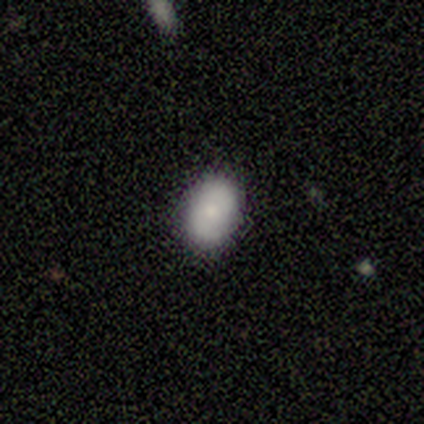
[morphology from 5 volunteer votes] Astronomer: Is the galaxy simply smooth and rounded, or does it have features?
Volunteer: featured or disk — 60% (runner-up: smooth, 40%).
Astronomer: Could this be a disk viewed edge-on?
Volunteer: no — 100%.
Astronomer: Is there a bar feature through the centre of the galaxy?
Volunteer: no — 100%.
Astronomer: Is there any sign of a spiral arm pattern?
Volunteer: yes — 100%.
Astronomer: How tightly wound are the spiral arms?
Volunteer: medium — 67%.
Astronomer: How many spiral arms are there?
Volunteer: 2 — 33%, tied with 3 and can't tell at 33%.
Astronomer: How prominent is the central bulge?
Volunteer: moderate — 100%.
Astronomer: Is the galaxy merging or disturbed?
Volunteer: none — 80%.